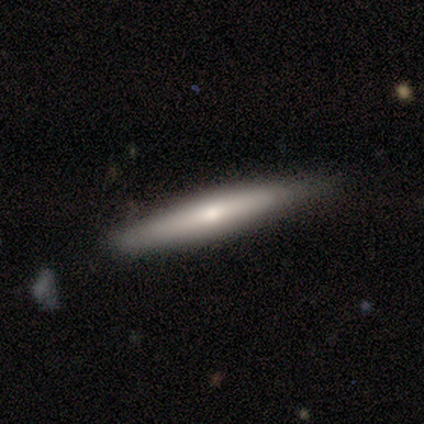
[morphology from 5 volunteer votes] Smooth or featured?
  - smooth: 60% *
  - featured or disk: 40%
  - star or artifact: 0%
How rounded?
  - cigar-shaped: 100% *
  - round: 0%
  - in between: 0%
Merging?
  - none: 60% *
  - minor disturbance: 40%
  - major disturbance: 0%
  - merger: 0%